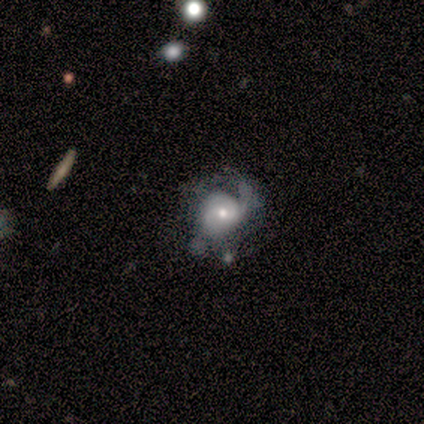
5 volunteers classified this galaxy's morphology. A featured or disk galaxy (100%) with no bar (80%), 1 (100%) medium (75%) spiral arms (80%) and a moderate central bulge (60%).

Vote fractions:
- Smooth or featured? featured or disk: 100% / smooth: 0% / star or artifact: 0%
- Edge-on disk? no: 100% / yes: 0%
- Bar? no: 80% / weak: 20% / strong: 0%
- Spiral arms? yes: 80% / no: 20%
- Spiral winding? medium: 75% / loose: 25% / tight: 0%
- Spiral arm count? 1: 100% / 2: 0% / 3: 0% / 4: 0% / more than 4: 0% / can't tell: 0%
- Bulge size? moderate: 60% / large: 20% / small: 20% / dominant: 0% / none: 0%
- Merging? major disturbance: 40% / none: 20% / minor disturbance: 20% / merger: 20%